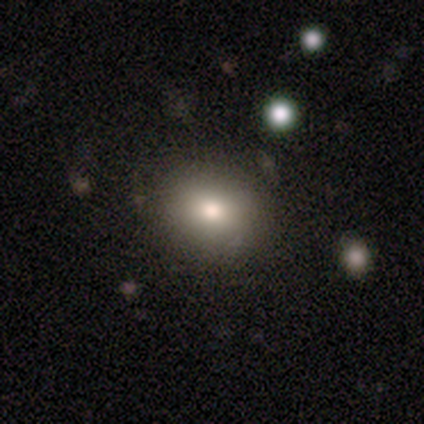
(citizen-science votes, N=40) smooth 90%, featured or disk 8%, star or artifact 2%. Down the decision tree: how rounded — round (56%); merging — none (82%).